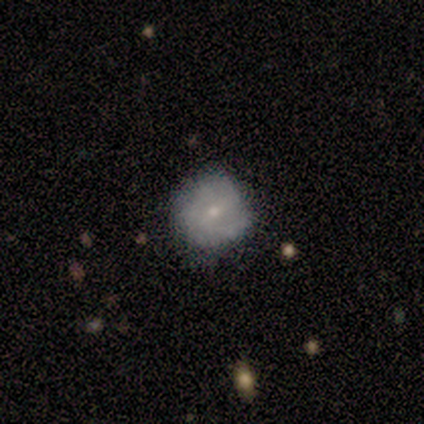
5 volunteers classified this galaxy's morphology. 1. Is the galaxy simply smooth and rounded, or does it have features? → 80% featured or disk, 20% smooth, 0% star or artifact.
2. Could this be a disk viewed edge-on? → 100% no, 0% yes.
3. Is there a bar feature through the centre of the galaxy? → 50% weak (tied), 50% no (tied), 0% strong.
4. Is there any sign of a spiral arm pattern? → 100% yes, 0% no.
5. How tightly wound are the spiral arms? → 50% medium, 25% tight, 25% loose.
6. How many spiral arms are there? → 50% 2, 25% 1, 25% can't tell, 0% 3, 0% 4, 0% more than 4.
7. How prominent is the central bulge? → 75% small, 25% moderate, 0% dominant, 0% large, 0% none.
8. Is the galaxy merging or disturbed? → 60% none, 40% minor disturbance, 0% major disturbance, 0% merger.